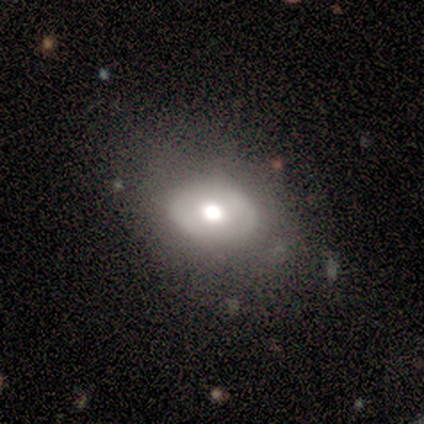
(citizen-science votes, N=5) Morphology: type=smooth (80%); roundness=in between (100%); merging=none (100%).